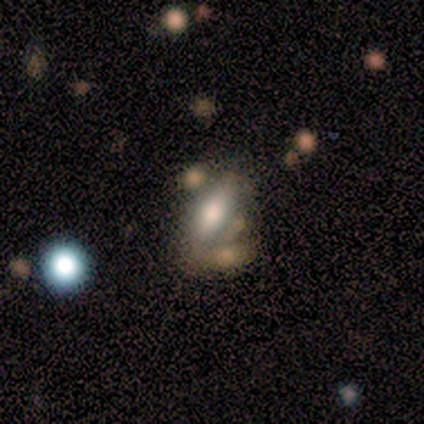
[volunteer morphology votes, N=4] type=smooth (50%, tied with featured or disk); roundness=round (50%, tied with cigar-shaped); merging=minor disturbance (50%).